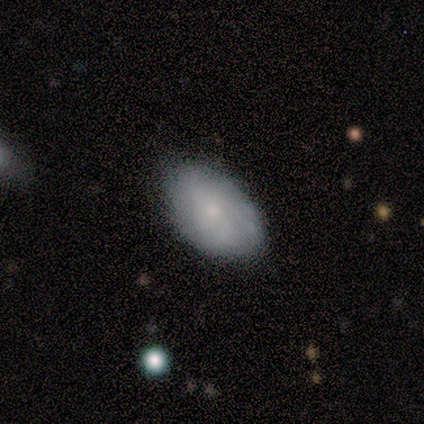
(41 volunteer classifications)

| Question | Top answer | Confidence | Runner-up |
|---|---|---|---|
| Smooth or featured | smooth | 56% | featured or disk (37%) |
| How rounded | in between | 96% | round (4%) |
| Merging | none | 89% | minor disturbance (11%) |